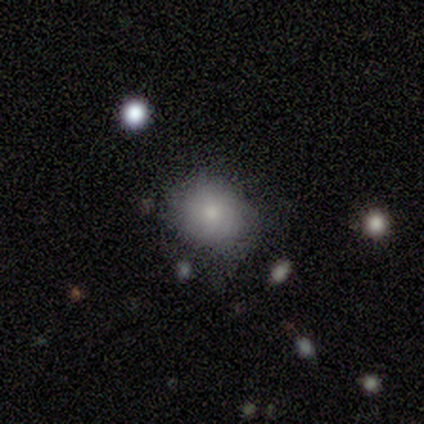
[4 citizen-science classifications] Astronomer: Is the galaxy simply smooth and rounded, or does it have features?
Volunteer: smooth — 50%, tied with star or artifact at 50%.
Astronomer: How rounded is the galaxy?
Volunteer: round — 50%, tied with in between at 50%.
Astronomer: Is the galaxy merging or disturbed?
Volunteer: none — 50%, tied with major disturbance at 50%.